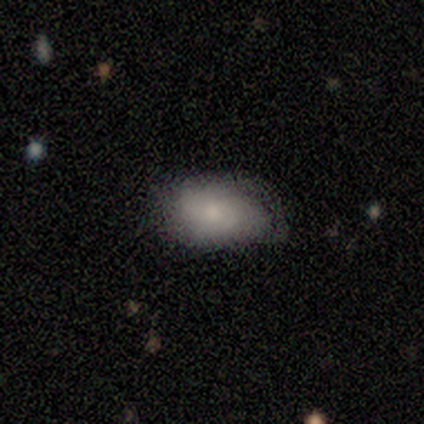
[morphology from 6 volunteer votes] Overall: smooth (50%, tied with featured or disk). How rounded: in between (100%). Merging: minor disturbance (50%; none 33%).